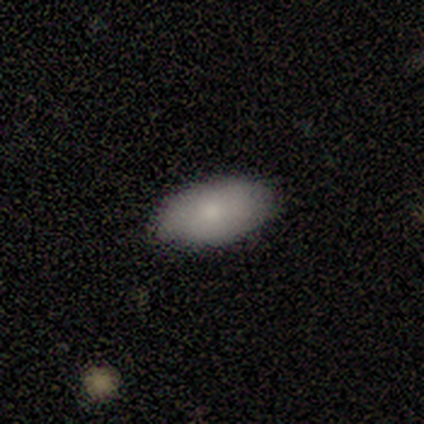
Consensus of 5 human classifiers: This appears to be a smooth galaxy with no disk features (60%) that is in between round and cigar-shaped (100%). Merging: none (100%).